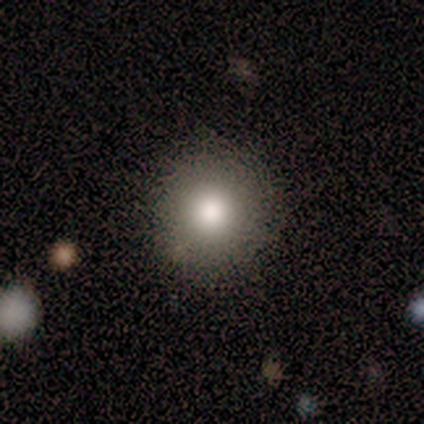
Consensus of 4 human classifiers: Smooth or featured?
  - smooth: 75% *
  - star or artifact: 25%
  - featured or disk: 0%
How rounded?
  - round: 100% *
  - in between: 0%
  - cigar-shaped: 0%
Merging?
  - none: 100% *
  - minor disturbance: 0%
  - major disturbance: 0%
  - merger: 0%